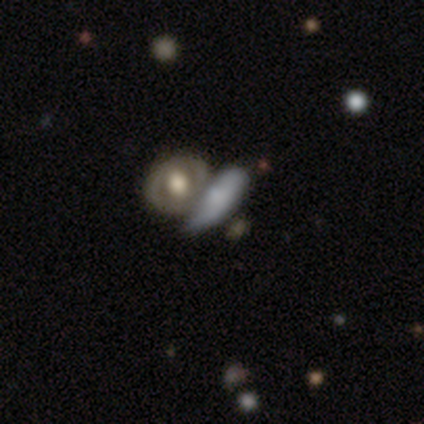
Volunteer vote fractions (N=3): Overall: smooth (67%; featured or disk 33%). How rounded: in between (100%). Merging: none (33%, tied with minor disturbance and merger).